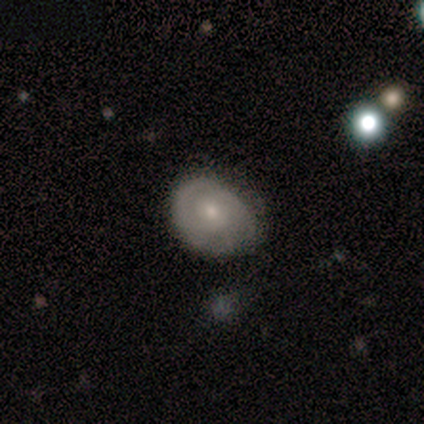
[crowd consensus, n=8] Overall: featured or disk (75%). Edge-on disk: no (83%). Bar: no (100%). Spiral arms: no (100%). Bulge size: small (60%; moderate 40%). Merging: none (75%).